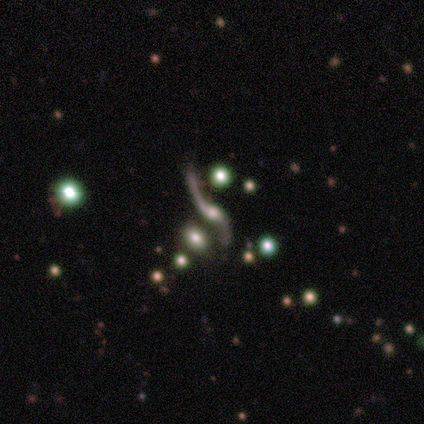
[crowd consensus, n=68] Q: Smooth or featured?
A: featured or disk (79%); runner-up: star or artifact (18%)
Q: Edge-on disk?
A: no (94%); runner-up: yes (6%)
Q: Bar?
A: no (71%); runner-up: weak (24%)
Q: Spiral arms?
A: yes (92%); runner-up: no (8%)
Q: Spiral winding?
A: loose (100%)
Q: Spiral arm count?
A: 2 (96%); runner-up: 1 (4%)
Q: Bulge size?
A: moderate (57%); runner-up: small (25%)
Q: Merging?
A: none (55%); runner-up: minor disturbance (23%)